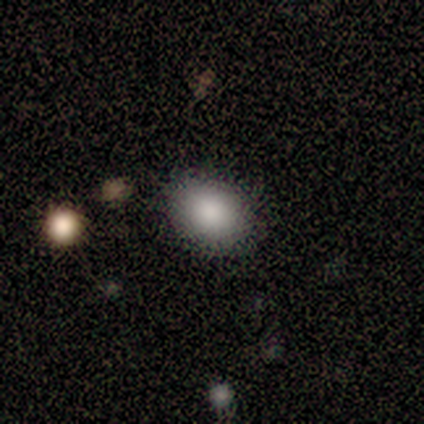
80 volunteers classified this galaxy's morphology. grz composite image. It shows a smooth galaxy with no disk features (86%) that is in between round and cigar-shaped (55%). Merging: none (43%).